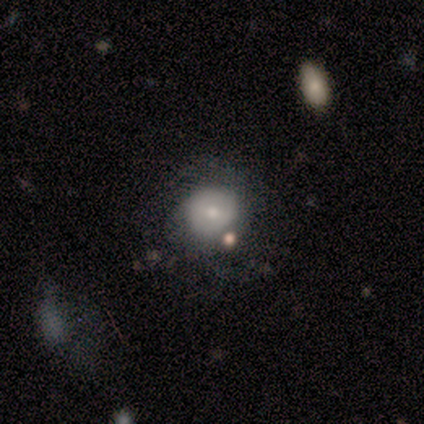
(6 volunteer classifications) This appears to be a smooth galaxy with no disk features (50%, tied with featured or disk) that is round (100%). Merging: none (67%).